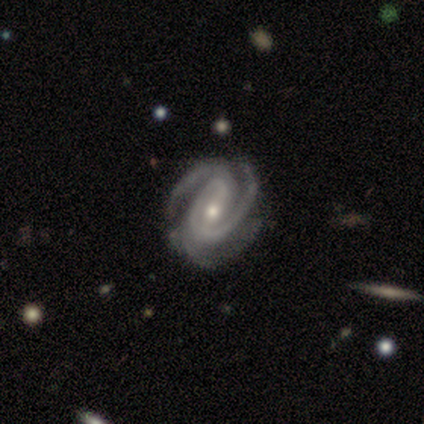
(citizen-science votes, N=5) A featured or disk galaxy (80%) with a strong bar (50%, tied with no), 3 (50%) tight (75%) spiral arms (100%) and a moderate central bulge (75%). Merging: none (50%).